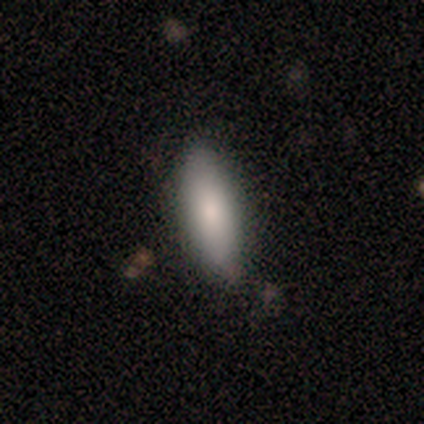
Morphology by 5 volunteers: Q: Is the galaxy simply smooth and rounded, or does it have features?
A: smooth — 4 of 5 (80%).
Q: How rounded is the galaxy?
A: in between — 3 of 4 (75%).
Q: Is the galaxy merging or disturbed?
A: none — 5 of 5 (100%).